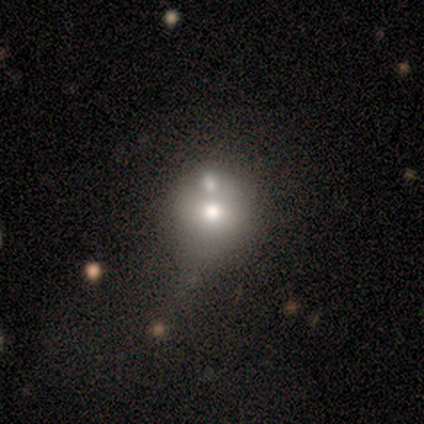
A smooth galaxy with no disk features (80%) that is round (75%). Merging: none (40%, tied with merger).